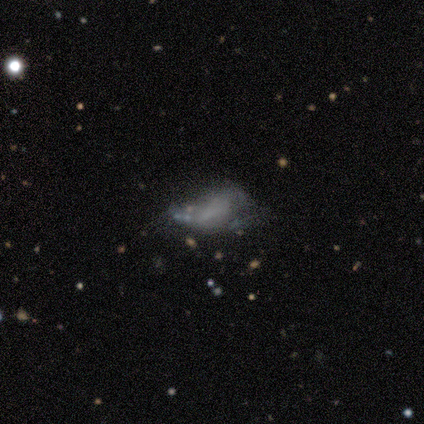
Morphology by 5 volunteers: Overall: featured or disk (80%). Edge-on disk: no (75%). Bar: no (100%). Spiral arms: no (67%; yes 33%). Bulge size: none (67%; moderate 33%). Merging: minor disturbance (50%, tied with major disturbance).